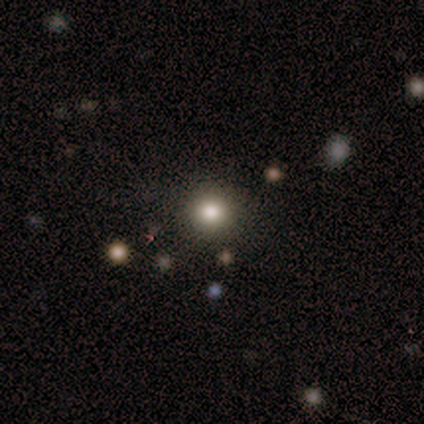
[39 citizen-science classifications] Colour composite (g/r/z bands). It shows a smooth galaxy with no disk features (72%) that is round (89%). Merging: none (97%).